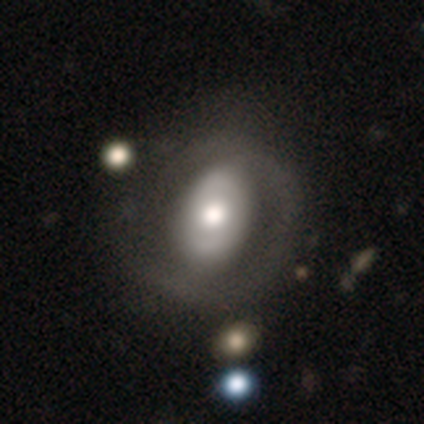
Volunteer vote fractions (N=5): Smooth or featured?
  - smooth: 60% *
  - featured or disk: 40%
  - star or artifact: 0%
How rounded?
  - in between: 67% *
  - round: 33%
  - cigar-shaped: 0%
Merging?
  - none: 40% * (tied)
  - minor disturbance: 40% * (tied)
  - major disturbance: 20%
  - merger: 0%